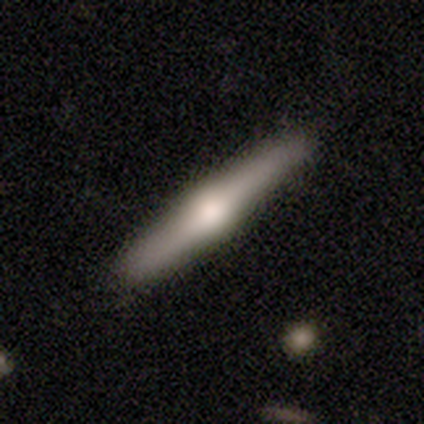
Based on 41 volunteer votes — smooth-or-featured: featured or disk: 61% | smooth: 37% | star or artifact: 2%
  disk-edge-on: yes: 96% | no: 4%
    edge-on-bulge: rounded: 83% | boxy: 8% | none: 8%
  merging: none: 92% | minor disturbance: 8% | major disturbance: 0% | merger: 0%